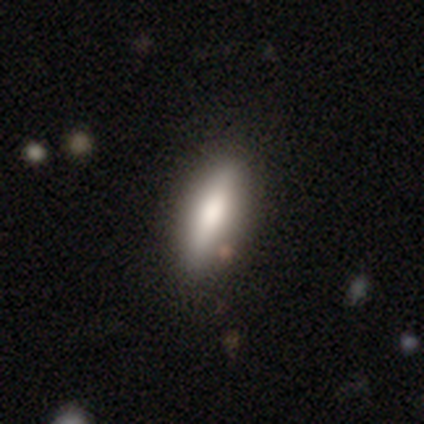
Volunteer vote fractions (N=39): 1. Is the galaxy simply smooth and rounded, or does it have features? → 72% smooth, 28% featured or disk, 0% star or artifact.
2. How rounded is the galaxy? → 50% in between, 46% cigar-shaped, 4% round.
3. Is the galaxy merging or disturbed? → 67% none, 8% minor disturbance, 3% merger, 0% major disturbance.